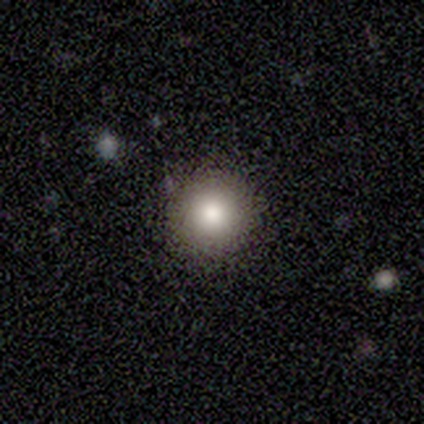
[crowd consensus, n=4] Smooth or featured: smooth — 75% (featured or disk — 25%)
How rounded: round — 100%
Merging: none — 75% (major disturbance — 25%)